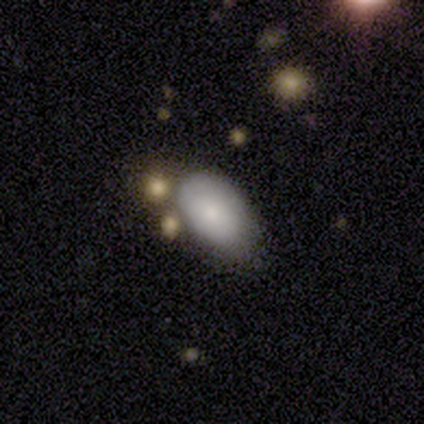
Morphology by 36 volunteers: Q: Smooth or featured?
A: smooth (75%); runner-up: star or artifact (14%)
Q: How rounded?
A: in between (89%); runner-up: round (11%)
Q: Merging?
A: none (45%); tied with: minor disturbance (45%)